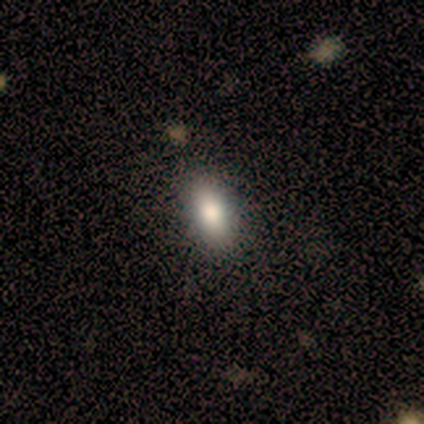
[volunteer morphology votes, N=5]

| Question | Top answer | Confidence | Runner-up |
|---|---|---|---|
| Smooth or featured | smooth | 80% | star or artifact (20%) |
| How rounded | in between | 100% | — |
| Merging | none | 75% | minor disturbance (25%) |